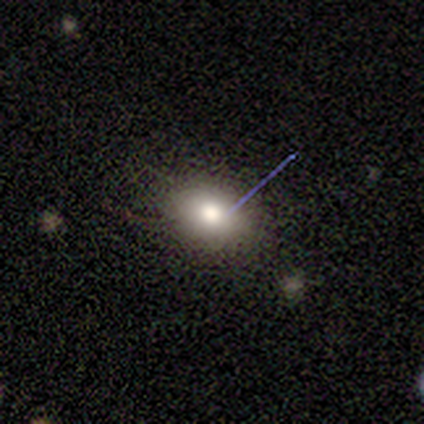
smooth 75%, featured or disk 25%, star or artifact 0%. Down the decision tree: how rounded — in between (100%); merging — none (50%, tied with minor disturbance).